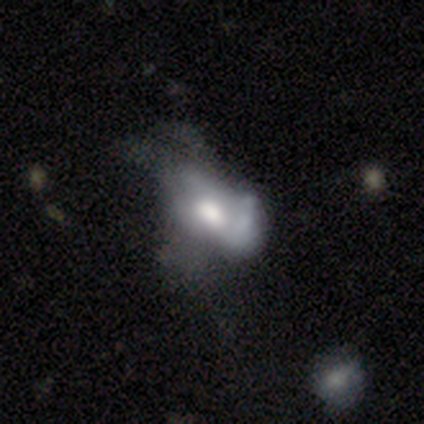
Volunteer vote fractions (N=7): Overall: smooth (71%). How rounded: in between (80%). Merging: major disturbance (57%; merger 29%).